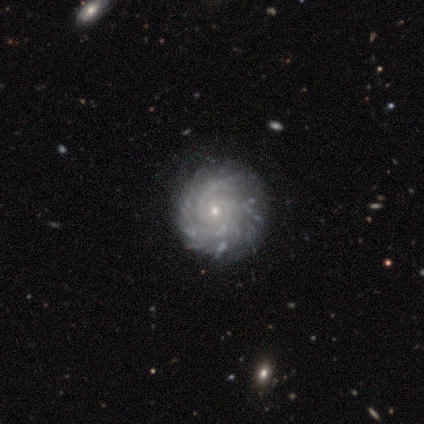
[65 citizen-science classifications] smooth_or_featured: featured or disk (p=0.94) [alt: smooth p=0.03]
disk_edge_on: no (p=0.98) [alt: yes p=0.02]
bar: no (p=0.83) [alt: weak p=0.12]
has_spiral_arms: yes (p=1.00)
spiral_winding: tight (p=0.83) [alt: medium p=0.15]
spiral_arm_count: 3 (p=0.28) [tied with: more than 4 p=0.28]
bulge_size: small (p=0.85) [alt: moderate p=0.15]
merging: none (p=0.83) [alt: minor disturbance p=0.13]